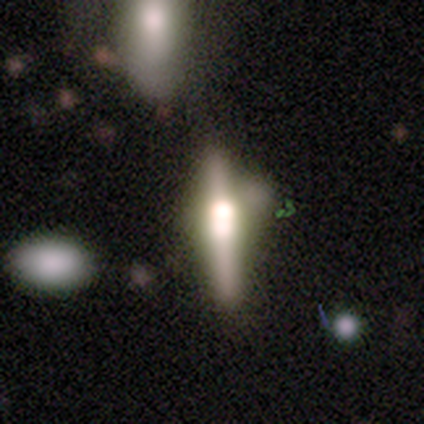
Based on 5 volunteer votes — A featured or disk galaxy (80%) viewed edge-on (100%) with a boxy central bulge (75%).

Vote fractions:
- Smooth or featured? featured or disk: 80% / smooth: 20% / star or artifact: 0%
- Edge-on disk? yes: 100% / no: 0%
- Edge-on bulge? boxy: 75% / rounded: 25% / none: 0%
- Merging? none: 60% / minor disturbance: 40% / major disturbance: 0% / merger: 0%